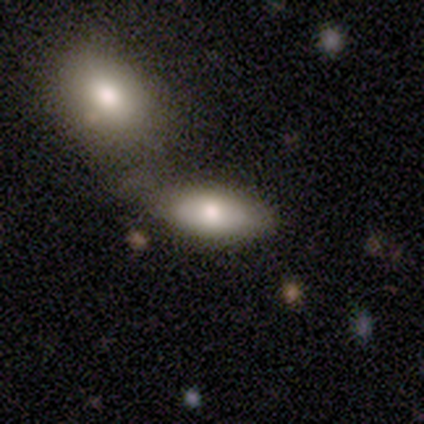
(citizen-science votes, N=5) Smooth or featured?
  - smooth: 60% *
  - featured or disk: 40%
  - star or artifact: 0%
How rounded?
  - in between: 100% *
  - round: 0%
  - cigar-shaped: 0%
Merging?
  - minor disturbance: 40% * (tied)
  - merger: 40% * (tied)
  - none: 20%
  - major disturbance: 0%